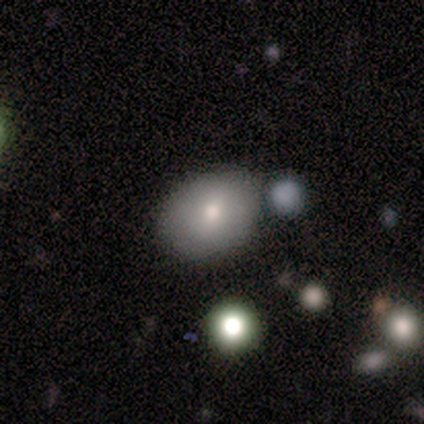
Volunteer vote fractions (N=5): Smooth or featured? smooth (80%)
How rounded? round (50%, tied with in between)
Merging? none (60%)